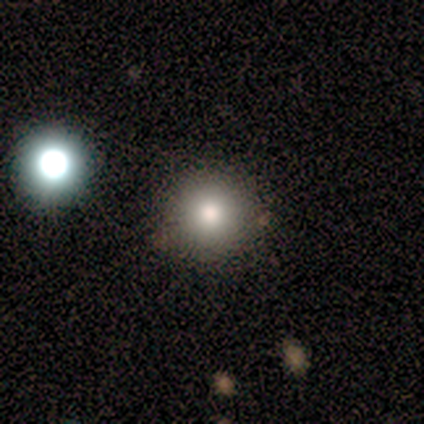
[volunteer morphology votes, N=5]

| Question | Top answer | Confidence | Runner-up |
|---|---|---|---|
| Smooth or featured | smooth | 100% | — |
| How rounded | round | 100% | — |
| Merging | none | 100% | — |